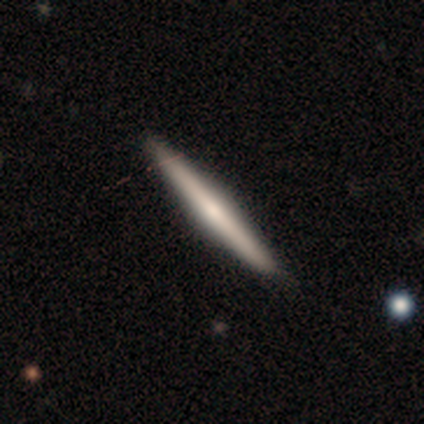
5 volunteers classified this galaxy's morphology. Smooth or featured? 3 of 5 (60%) said smooth. How rounded? 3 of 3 (100%) said cigar-shaped. Merging? 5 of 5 (100%) said none.